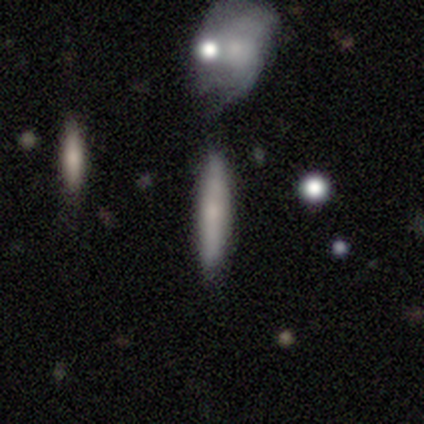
Overall: smooth (75%). How rounded: cigar-shaped (100%). Merging: none (75%).